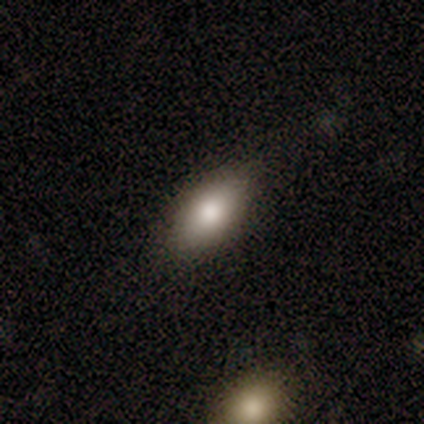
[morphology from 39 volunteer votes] smooth 74%, star or artifact 15%, featured or disk 10%. Down the decision tree: how rounded — in between (93%); merging — none (91%).